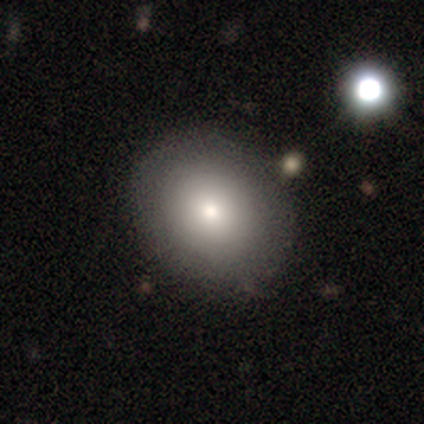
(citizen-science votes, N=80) Volunteers were most divided on "how rounded": round: 58%, in between: 42%, cigar-shaped: 0%. More confident: smooth or featured — smooth (75%); merging — none (51%).